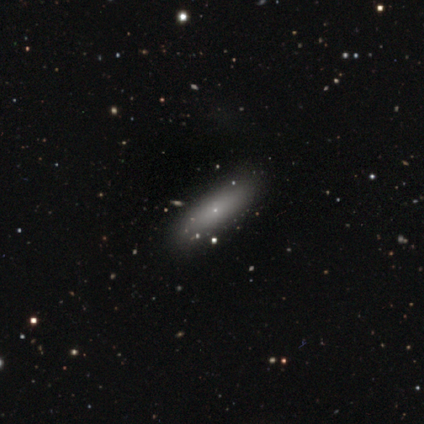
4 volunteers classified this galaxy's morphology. Smooth or featured? 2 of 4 (50%, tied with featured or disk) said smooth. How rounded? 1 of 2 (50%, tied with in between) said round. Merging? 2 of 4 (50%) said none.